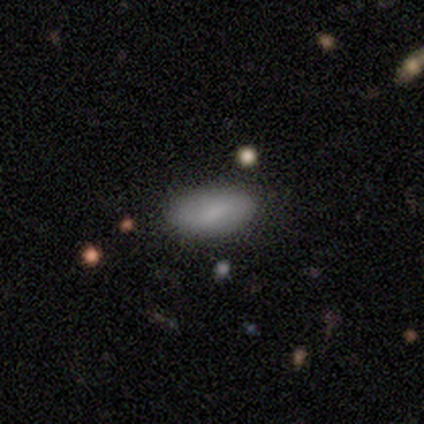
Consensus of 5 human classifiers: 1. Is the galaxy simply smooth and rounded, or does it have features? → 80% smooth, 20% star or artifact, 0% featured or disk.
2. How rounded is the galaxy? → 100% in between, 0% round, 0% cigar-shaped.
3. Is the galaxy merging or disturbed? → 100% none, 0% minor disturbance, 0% major disturbance, 0% merger.